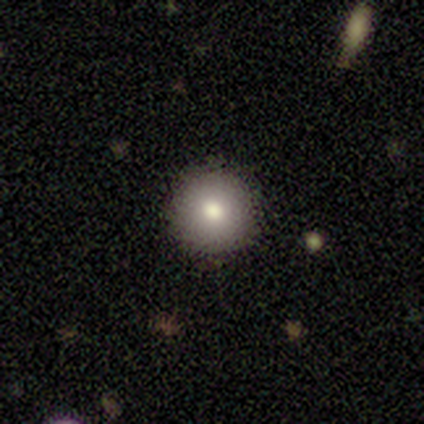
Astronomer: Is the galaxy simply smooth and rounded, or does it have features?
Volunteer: smooth — 89%.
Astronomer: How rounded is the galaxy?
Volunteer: round — 100%.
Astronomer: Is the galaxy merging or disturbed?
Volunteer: none — 97%.